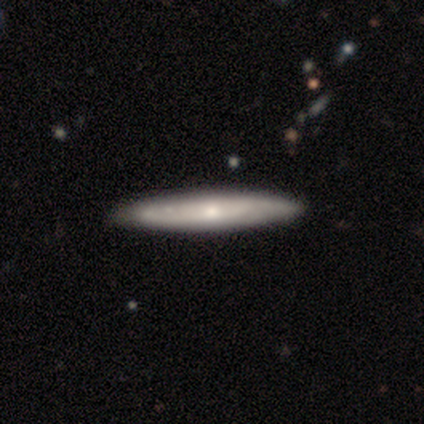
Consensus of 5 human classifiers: Smooth or featured? 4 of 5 (80%) said featured or disk. Edge-on disk? 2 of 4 (50%, tied with no) said yes. Edge-on bulge? 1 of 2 (50%, tied with rounded) said none. Merging? 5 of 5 (100%) said none.